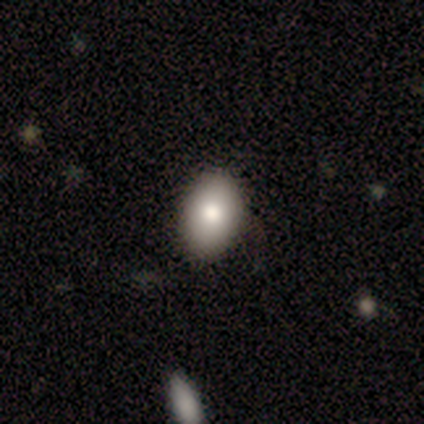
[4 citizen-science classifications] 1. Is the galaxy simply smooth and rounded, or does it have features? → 75% smooth, 25% featured or disk, 0% star or artifact.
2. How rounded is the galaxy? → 67% in between, 33% round, 0% cigar-shaped.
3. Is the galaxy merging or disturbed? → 100% none, 0% minor disturbance, 0% major disturbance, 0% merger.